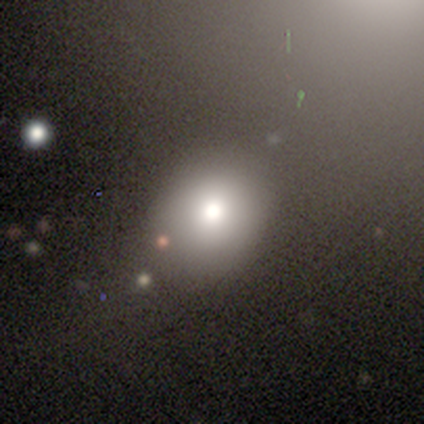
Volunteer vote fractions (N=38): This is clearly a smooth galaxy (82%). How rounded: likely round (68%). Merging: likely none (73%).